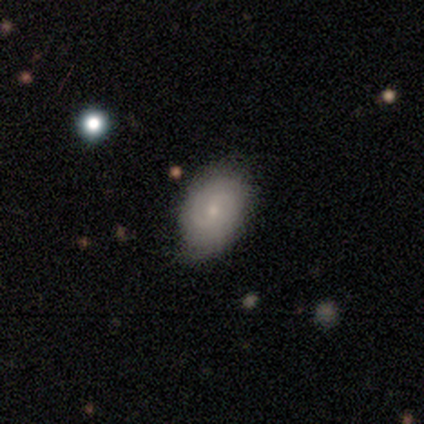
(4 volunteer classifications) A featured or disk galaxy (75%) with a weak bar (100%), 2 (50%, tied with can't tell) tight (50%, tied with medium) spiral arms (100%) and a small central bulge (100%).

Vote fractions:
- Smooth or featured? featured or disk: 75% / smooth: 25% / star or artifact: 0%
- Edge-on disk? no: 67% / yes: 33%
- Bar? weak: 100% / strong: 0% / no: 0%
- Spiral arms? yes: 100% / no: 0%
- Spiral winding? tight: 50% (tied) / medium: 50% (tied) / loose: 0%
- Spiral arm count? 2: 50% (tied) / can't tell: 50% (tied) / 1: 0% / 3: 0% / 4: 0% / more than 4: 0%
- Bulge size? small: 100% / dominant: 0% / large: 0% / moderate: 0% / none: 0%
- Merging? none: 100% / minor disturbance: 0% / major disturbance: 0% / merger: 0%